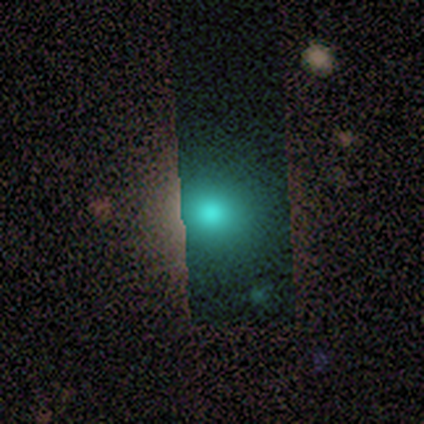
This appears to be a smooth galaxy with no disk features (69%) that is round (78%). Merging: none (80%).